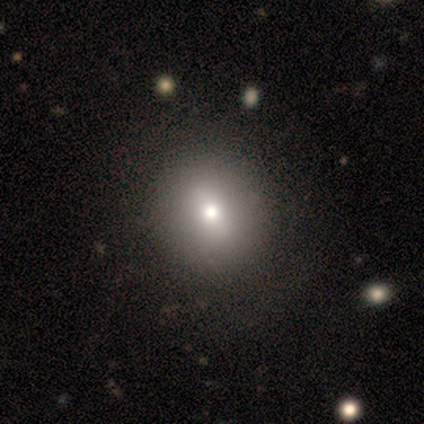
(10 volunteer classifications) smooth 50%, star or artifact 30%, featured or disk 20%. Down the decision tree: how rounded — round (80%); merging — none (86%).